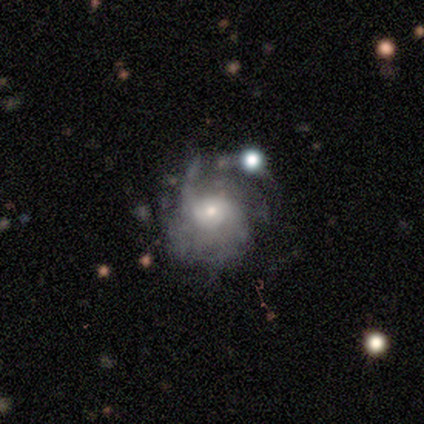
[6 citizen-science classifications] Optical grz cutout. It shows a smooth galaxy with no disk features (50%, tied with featured or disk) that is round (67%). Merging: minor disturbance (50%).